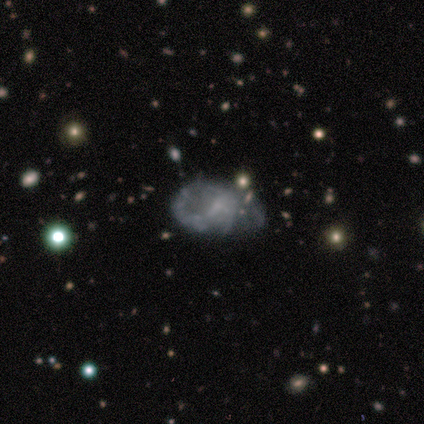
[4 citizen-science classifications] Smooth or featured? smooth (50%, tied with featured or disk)
How rounded? in between (100%)
Merging? minor disturbance (50%)